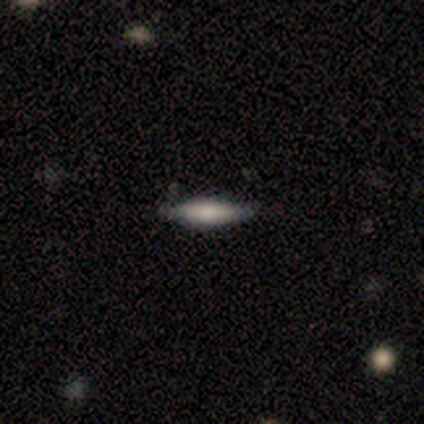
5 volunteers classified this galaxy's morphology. A smooth galaxy with no disk features (80%) that is cigar-shaped (100%).

Vote fractions:
- Smooth or featured? smooth: 80% / featured or disk: 20% / star or artifact: 0%
- How rounded? cigar-shaped: 100% / round: 0% / in between: 0%
- Merging? none: 80% / major disturbance: 20% / minor disturbance: 0% / merger: 0%